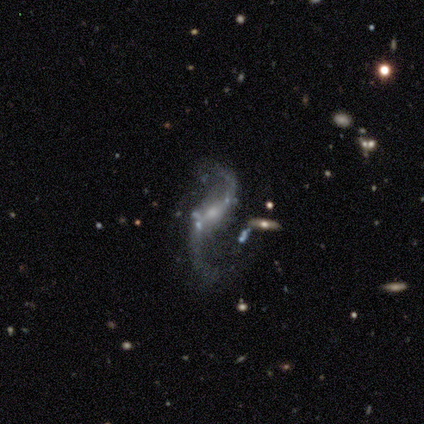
A featured or disk galaxy (100%) with no bar (50%), 2 (100%) loose (100%) spiral arms (100%) and a small central bulge (75%). Merging: none (50%, tied with major disturbance).